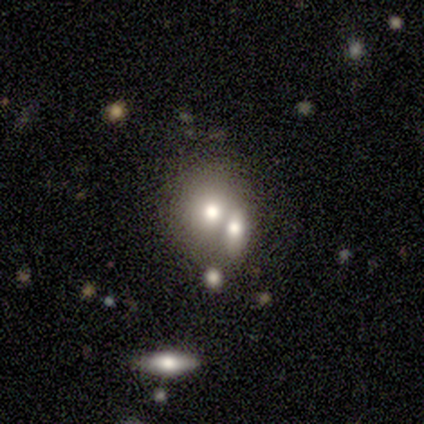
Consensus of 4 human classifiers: smooth 50% (tied), featured or disk 50% (tied), star or artifact 0%. Down the decision tree: how rounded — round (100%); merging — merger (75%).